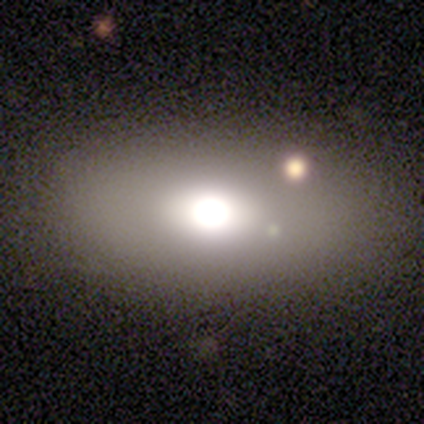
Smooth or featured: smooth — 60% (featured or disk — 20%)
How rounded: in between — 67% (round — 33%)
Merging: none — 100%